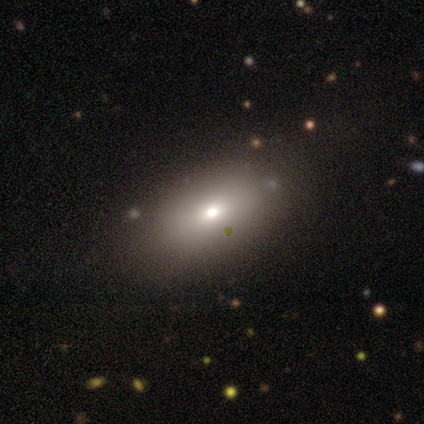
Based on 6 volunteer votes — smooth 100%, featured or disk 0%, star or artifact 0%. Down the decision tree: how rounded — in between (100%); merging — none (100%).